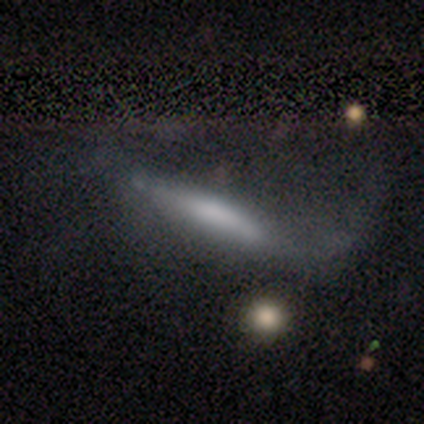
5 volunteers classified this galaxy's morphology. smooth_or_featured: smooth (p=0.60) [alt: featured or disk p=0.40]
how_rounded: cigar-shaped (p=1.00)
merging: none (p=0.40) [tied with: major disturbance p=0.40]